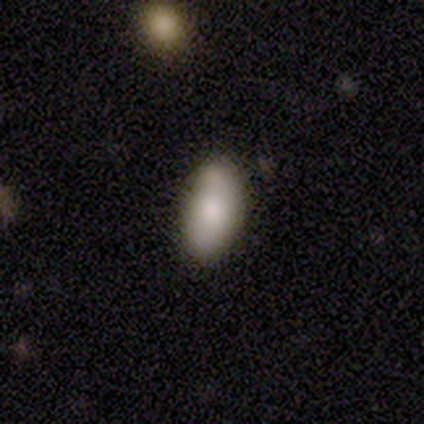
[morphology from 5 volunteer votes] Q: Smooth or featured?
A: smooth (100%)
Q: How rounded?
A: in between (100%)
Q: Merging?
A: none (80%); runner-up: minor disturbance (20%)